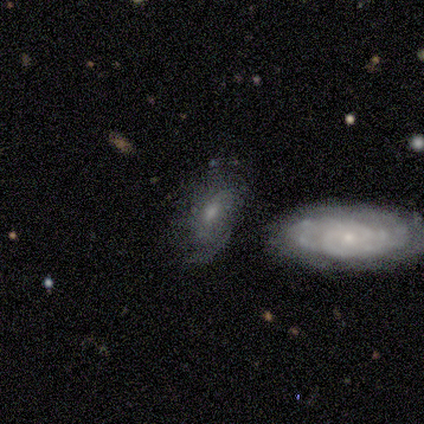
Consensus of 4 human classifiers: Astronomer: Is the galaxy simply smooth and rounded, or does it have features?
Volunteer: featured or disk — 75%.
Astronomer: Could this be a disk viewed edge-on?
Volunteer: no — 100%.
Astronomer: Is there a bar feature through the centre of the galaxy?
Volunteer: weak — 67%.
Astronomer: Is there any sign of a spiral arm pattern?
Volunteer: no — 67%.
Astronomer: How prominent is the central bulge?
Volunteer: small — 67%.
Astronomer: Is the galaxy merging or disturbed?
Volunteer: none — 75%.